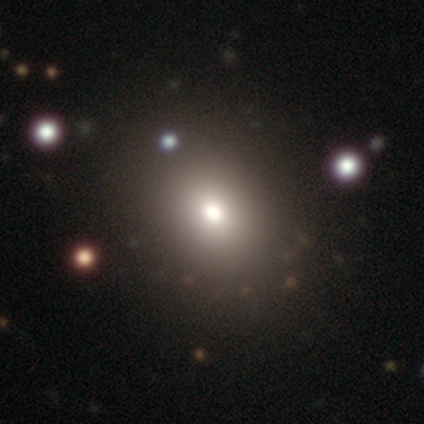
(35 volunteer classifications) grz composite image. It shows a smooth galaxy with no disk features (69%) that is round (54%). Merging: none (97%).